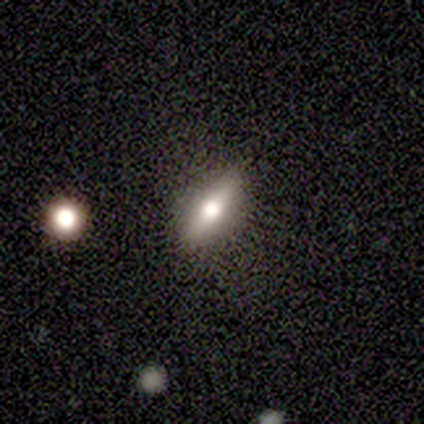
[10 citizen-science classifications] smooth-or-featured: featured or disk: 60% | smooth: 40% | star or artifact: 0%
  disk-edge-on: yes: 100% | no: 0%
    edge-on-bulge: rounded: 100% | boxy: 0% | none: 0%
  merging: none: 60% | minor disturbance: 20% | major disturbance: 20% | merger: 0%